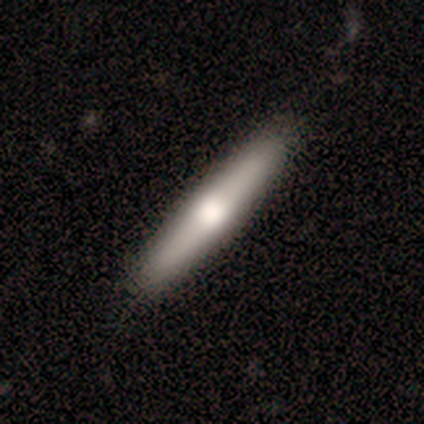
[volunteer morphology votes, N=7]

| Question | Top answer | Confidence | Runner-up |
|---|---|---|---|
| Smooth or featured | smooth | 43% | tied: featured or disk (43%) |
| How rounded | cigar-shaped | 100% | — |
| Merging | none | 100% | — |